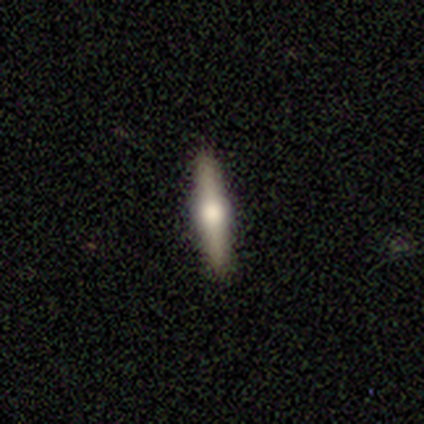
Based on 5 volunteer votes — Overall: featured or disk (100%). Edge-on disk: yes (100%). Edge-on bulge: rounded (100%). Merging: none (100%).